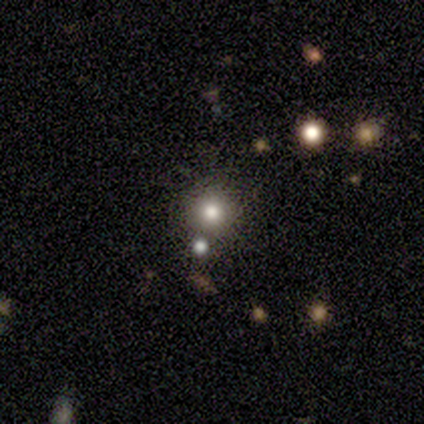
This appears to be a smooth galaxy with no disk features (86%) that is round (100%). Merging: none (50%).